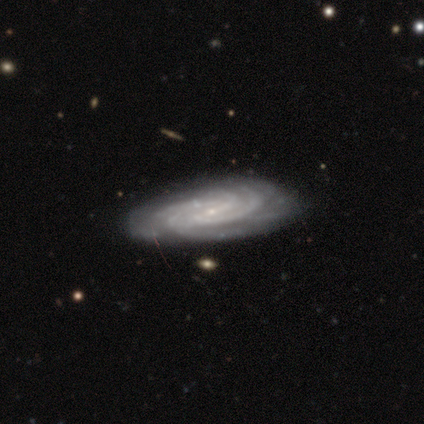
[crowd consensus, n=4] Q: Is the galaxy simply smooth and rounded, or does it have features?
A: featured or disk — 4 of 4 (100%).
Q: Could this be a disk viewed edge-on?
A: no — 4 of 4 (100%).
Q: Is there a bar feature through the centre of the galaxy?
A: weak — 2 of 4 (50%).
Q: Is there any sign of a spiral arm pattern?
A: yes — 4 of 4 (100%).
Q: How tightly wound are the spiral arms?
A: tight — 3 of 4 (75%).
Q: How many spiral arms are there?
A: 4 — 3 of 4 (75%).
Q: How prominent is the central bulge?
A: small — 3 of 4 (75%).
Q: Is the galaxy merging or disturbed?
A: none — 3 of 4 (75%).